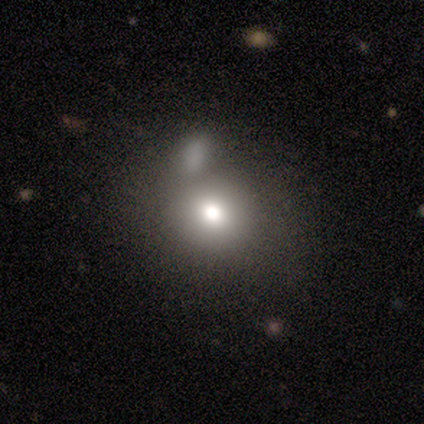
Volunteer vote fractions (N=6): Morphology: type=smooth (33%, tied with featured or disk and star or artifact); roundness=round (50%, tied with in between); merging=none (75%).